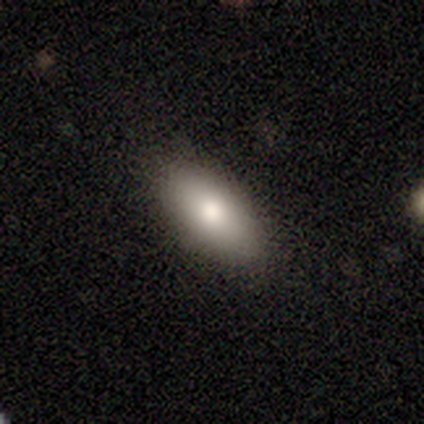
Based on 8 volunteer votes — Smooth or featured? smooth (88%)
How rounded? in between (86%)
Merging? none (100%)